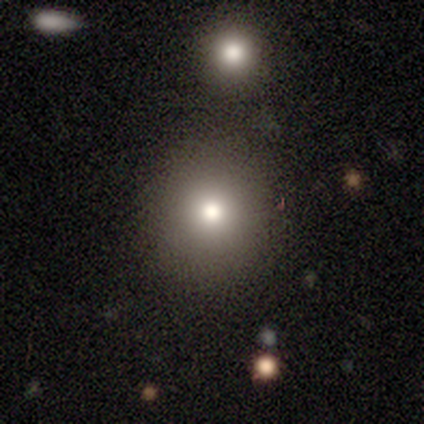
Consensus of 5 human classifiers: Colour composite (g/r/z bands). It shows a smooth galaxy with no disk features (100%) that is round (100%). Merging: none (100%).